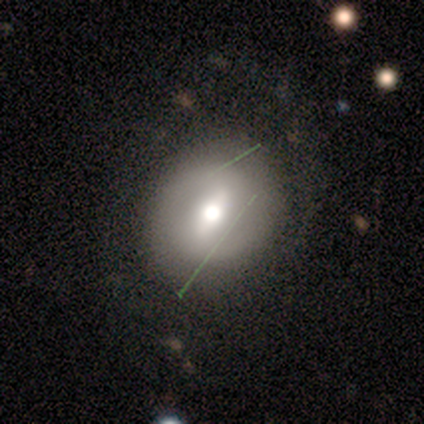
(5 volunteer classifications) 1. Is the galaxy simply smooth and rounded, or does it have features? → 40% smooth (tied), 40% featured or disk (tied), 20% star or artifact.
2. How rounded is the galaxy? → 100% round, 0% in between, 0% cigar-shaped.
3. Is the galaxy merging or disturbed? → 50% none, 25% minor disturbance, 25% major disturbance, 0% merger.